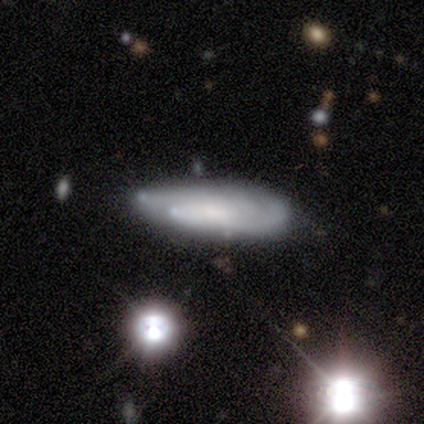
Smooth or featured? 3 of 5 (60%) said featured or disk. Edge-on disk? 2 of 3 (67%) said no. Bar? 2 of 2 (100%) said weak. Spiral arms? 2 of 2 (100%) said yes. Spiral winding? 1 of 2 (50%, tied with medium) said tight. Spiral arm count? 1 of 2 (50%, tied with 3) said 2. Bulge size? 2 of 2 (100%) said moderate. Merging? 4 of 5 (80%) said none.